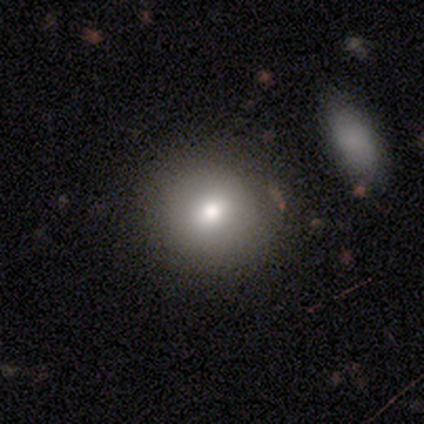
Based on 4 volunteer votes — A smooth galaxy with no disk features (50%, tied with star or artifact) that is round (100%).

Vote fractions:
- Smooth or featured? smooth: 50% (tied) / star or artifact: 50% (tied) / featured or disk: 0%
- How rounded? round: 100% / in between: 0% / cigar-shaped: 0%
- Merging? none: 100% / minor disturbance: 0% / major disturbance: 0% / merger: 0%